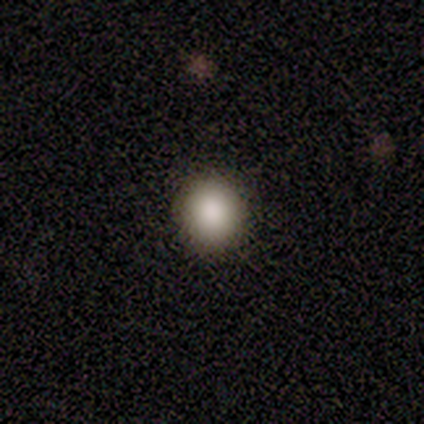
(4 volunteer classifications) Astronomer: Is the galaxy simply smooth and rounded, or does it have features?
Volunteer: smooth — 100%.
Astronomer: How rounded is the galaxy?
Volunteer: round — 100%.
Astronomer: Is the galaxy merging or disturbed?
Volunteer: none — 100%.